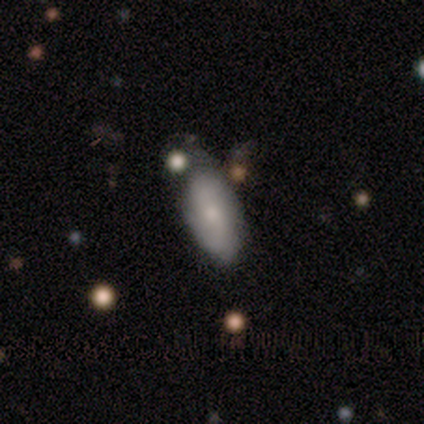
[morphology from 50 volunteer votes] Smooth or featured? smooth (68%)
How rounded? in between (88%)
Merging? none (50%)